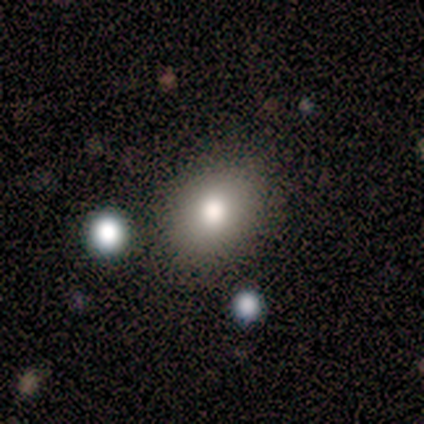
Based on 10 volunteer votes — A smooth galaxy with no disk features (90%) that is in between round and cigar-shaped (78%). Merging: none (89%).